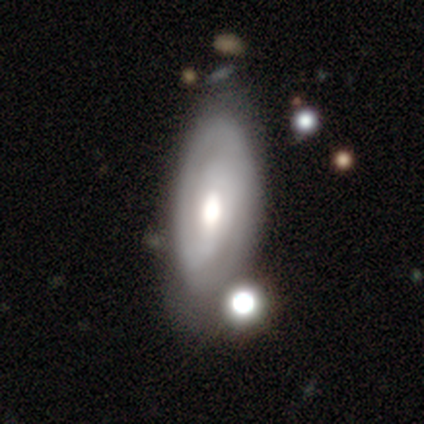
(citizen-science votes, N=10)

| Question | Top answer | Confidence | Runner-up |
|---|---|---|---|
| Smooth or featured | featured or disk | 70% | smooth (30%) |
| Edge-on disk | no | 57% | yes (43%) |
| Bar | no | 50% | strong (25%) |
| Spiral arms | yes | 75% | no (25%) |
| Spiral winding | tight | 100% | — |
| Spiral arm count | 2 | 100% | — |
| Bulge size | large | 50% | tied: moderate (50%) |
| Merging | none | 50% | tied: minor disturbance (50%) |